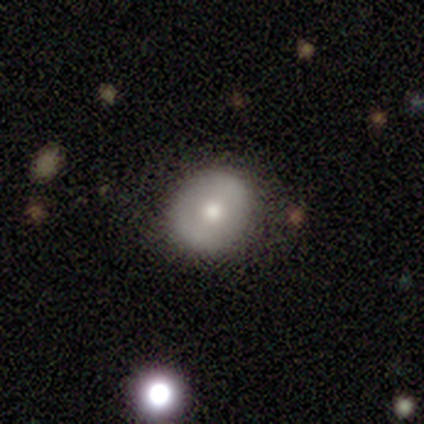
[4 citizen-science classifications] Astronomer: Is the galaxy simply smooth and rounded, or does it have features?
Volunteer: featured or disk — 75%.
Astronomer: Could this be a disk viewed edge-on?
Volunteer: no — 100%.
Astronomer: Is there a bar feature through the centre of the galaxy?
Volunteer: no — 100%.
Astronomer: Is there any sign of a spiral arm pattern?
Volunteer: no — 100%.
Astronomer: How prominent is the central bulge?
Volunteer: moderate — 100%.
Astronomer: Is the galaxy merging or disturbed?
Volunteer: none — 100%.